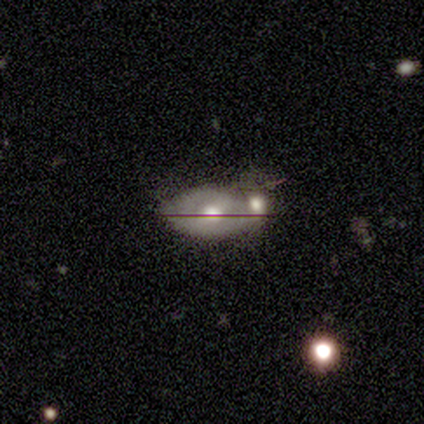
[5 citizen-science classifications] Overall: smooth (40%, tied with featured or disk). How rounded: in between (100%). Merging: merger (75%).